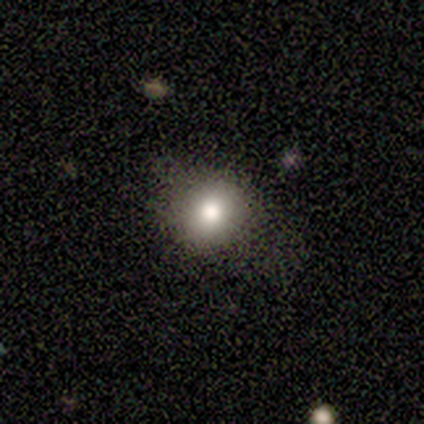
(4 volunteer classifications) Volunteers were most divided on "smooth or featured": smooth: 75%, featured or disk: 25%, star or artifact: 0%. More confident: how rounded — round (100%); merging — none (75%).